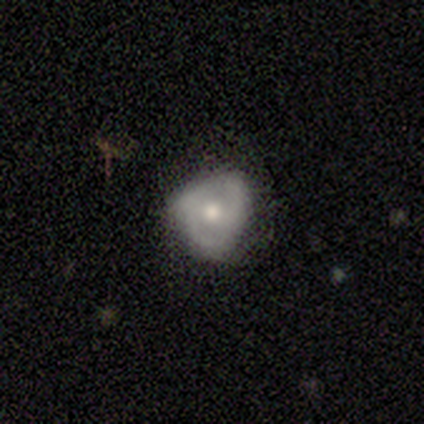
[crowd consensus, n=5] Overall: smooth (80%). How rounded: round (50%, tied with in between). Merging: none (60%; minor disturbance 40%).